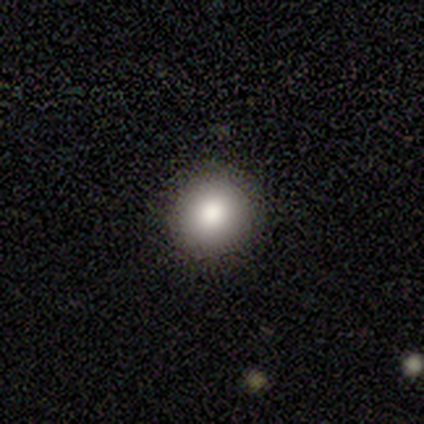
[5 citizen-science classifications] A smooth galaxy with no disk features (100%) that is round (100%).

Vote fractions:
- Smooth or featured? smooth: 100% / featured or disk: 0% / star or artifact: 0%
- How rounded? round: 100% / in between: 0% / cigar-shaped: 0%
- Merging? none: 80% / major disturbance: 20% / minor disturbance: 0% / merger: 0%